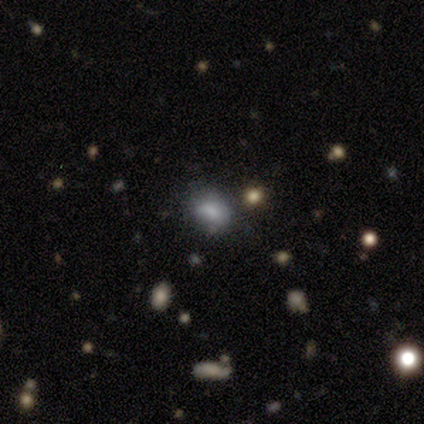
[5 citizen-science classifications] smooth_or_featured: smooth (p=0.80) [alt: star or artifact p=0.20]
how_rounded: in between (p=0.75) [alt: round p=0.25]
merging: none (p=0.50) [tied with: minor disturbance p=0.50]